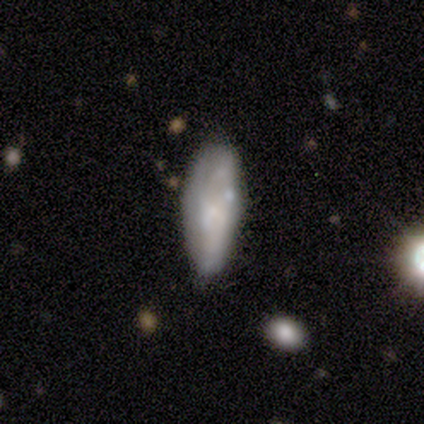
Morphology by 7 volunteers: smooth-or-featured: star or artifact: 43% | smooth: 29% | featured or disk: 29%